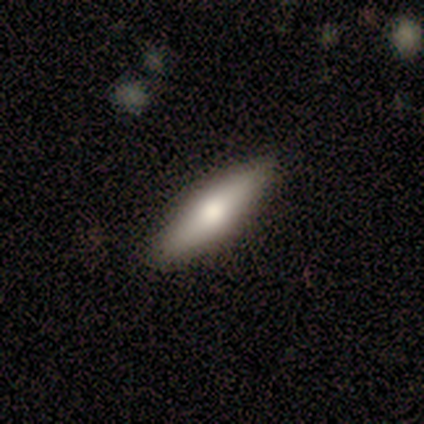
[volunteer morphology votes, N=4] Volunteers were most divided on "how rounded": cigar-shaped: 75%, in between: 25%, round: 0%. More confident: smooth or featured — smooth (100%); merging — none (100%).